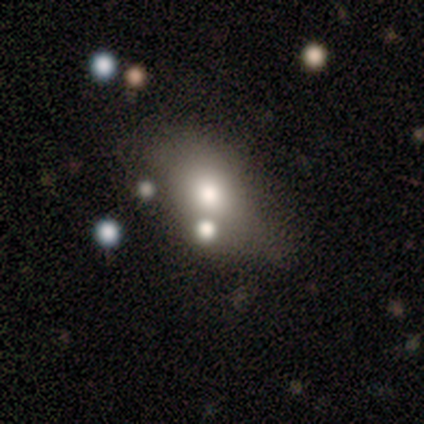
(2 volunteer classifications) Smooth or featured? 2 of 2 (100%) said smooth. How rounded? 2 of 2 (100%) said in between. Merging? 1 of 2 (50%, tied with merger) said minor disturbance.